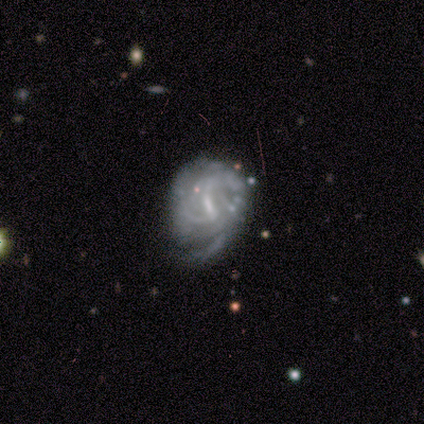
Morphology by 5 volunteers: Smooth or featured? featured or disk (100%)
Edge-on disk? no (100%)
Bar? weak (60%)
Spiral arms? yes (100%)
Spiral winding? tight (60%)
Spiral arm count? 3 (40%)
Bulge size? small (60%)
Merging? minor disturbance (60%)